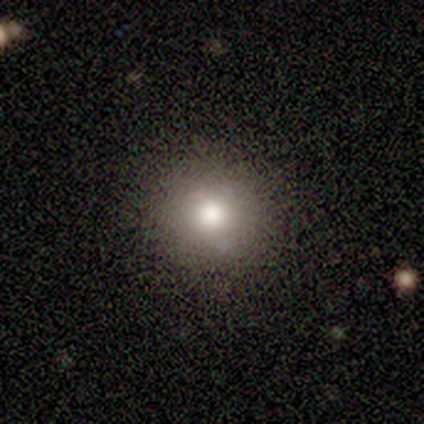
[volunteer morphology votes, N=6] Overall: smooth (50%; featured or disk 33%). How rounded: round (100%). Merging: none (80%).